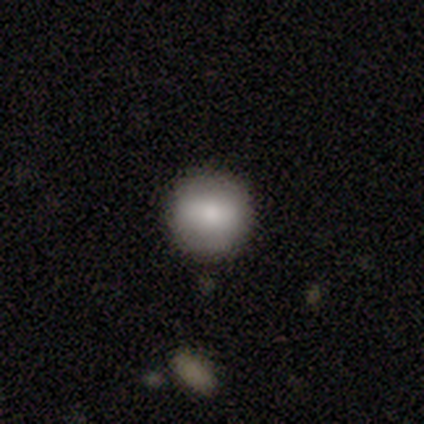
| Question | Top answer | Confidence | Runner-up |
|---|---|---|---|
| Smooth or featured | smooth | 74% | featured or disk (23%) |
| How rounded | round | 100% | — |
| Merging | none | 92% | minor disturbance (6%) |